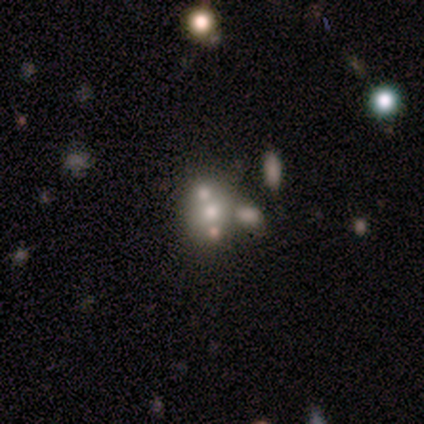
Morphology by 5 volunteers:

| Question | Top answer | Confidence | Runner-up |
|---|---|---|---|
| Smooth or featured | smooth | 80% | star or artifact (20%) |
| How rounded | round | 50% | tied: in between (50%) |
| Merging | none | 75% | merger (25%) |